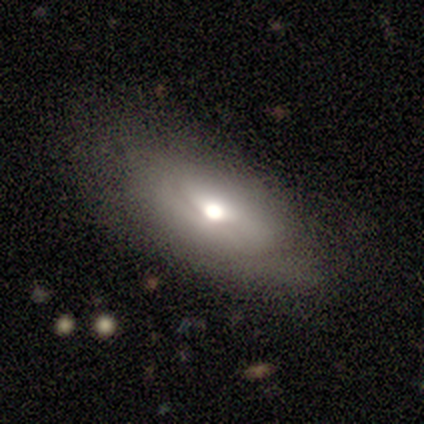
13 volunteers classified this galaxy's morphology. Smooth or featured?
  - featured or disk: 54% *
  - smooth: 46%
  - star or artifact: 0%
Edge-on disk?
  - no: 71% *
  - yes: 29%
Bar?
  - no: 100% *
  - strong: 0%
  - weak: 0%
Spiral arms?
  - no: 80% *
  - yes: 20%
Bulge size?
  - moderate: 100% *
  - dominant: 0%
  - large: 0%
  - small: 0%
  - none: 0%
Merging?
  - none: 62% *
  - minor disturbance: 23%
  - major disturbance: 15%
  - merger: 0%